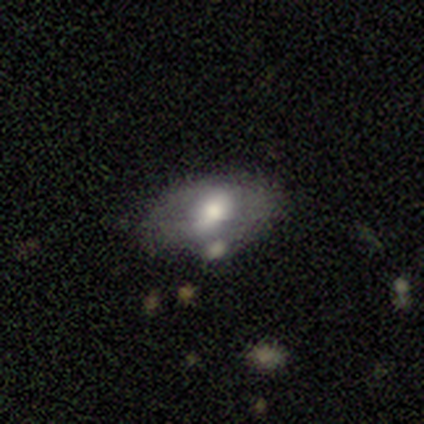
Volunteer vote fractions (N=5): smooth-or-featured: featured or disk: 40% (tied) | star or artifact: 40% (tied) | smooth: 20%
  disk-edge-on: yes: 50% (tied) | no: 50% (tied)
    edge-on-bulge: boxy: 100% | none: 0% | rounded: 0%
  merging: none: 67% | merger: 33% | minor disturbance: 0% | major disturbance: 0%